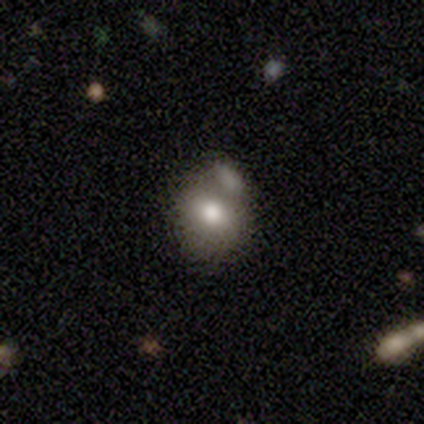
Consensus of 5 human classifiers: Overall: smooth (60%; featured or disk 20%). How rounded: in between (67%; round 33%). Merging: none (50%, tied with minor disturbance).